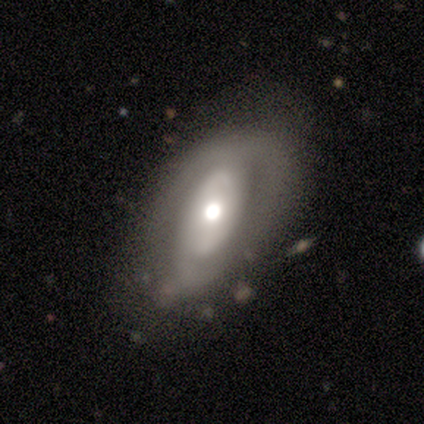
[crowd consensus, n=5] A featured or disk galaxy (80%) with no bar (100%), 1 (33%, tied with 2 and can't tell) tight (33%, tied with medium and loose) spiral arms (75%) and a moderate central bulge (75%). Merging: none (100%).